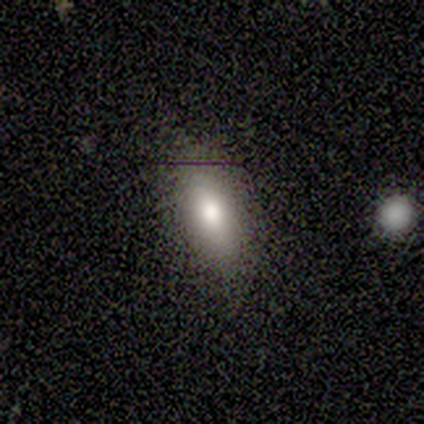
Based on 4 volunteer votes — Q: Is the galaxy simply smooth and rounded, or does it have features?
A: smooth — 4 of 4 (100%).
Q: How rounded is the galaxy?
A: in between — 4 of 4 (100%).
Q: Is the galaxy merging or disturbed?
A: none — 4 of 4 (100%).